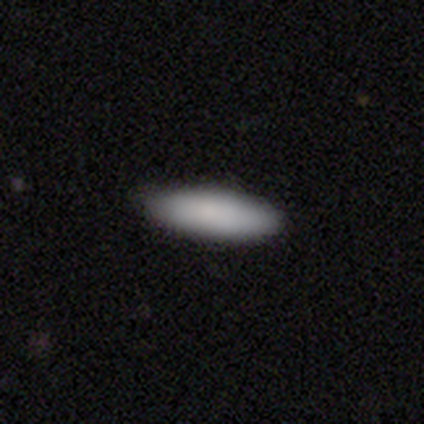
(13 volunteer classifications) Volunteers were most divided on "how rounded": in between: 70%, cigar-shaped: 30%, round: 0%. More confident: merging — none (100%); smooth or featured — smooth (77%).